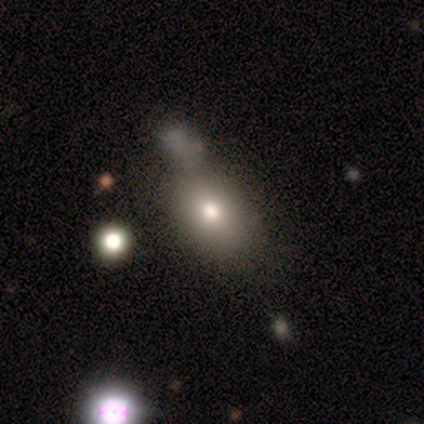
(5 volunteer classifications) Smooth or featured? 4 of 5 (80%) said smooth. How rounded? 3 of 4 (75%) said in between. Merging? 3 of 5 (60%) said none.